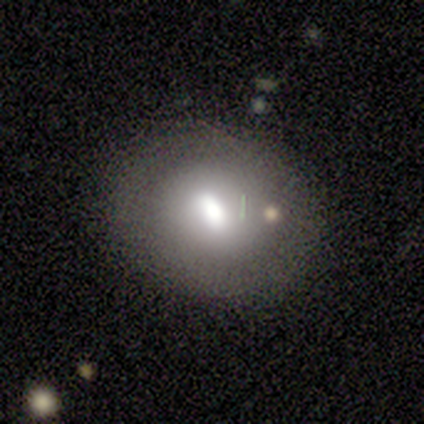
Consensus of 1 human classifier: featured or disk 100%, smooth 0%, star or artifact 0%. Down the decision tree: edge-on disk — no (100%); bar — weak (100%); spiral arms — yes (100%); spiral arm count — 1 (100%); spiral winding — medium (100%); bulge size — moderate (100%); merging — none (100%).